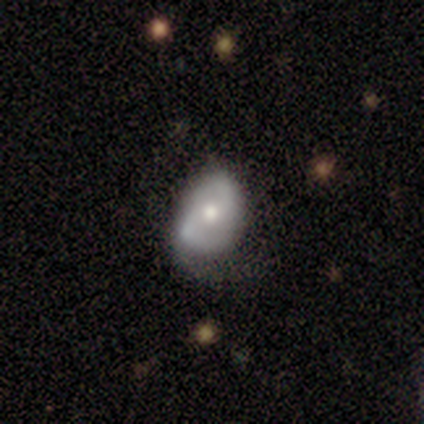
This appears to be a featured or disk galaxy (67%) with no bar (69%), 2 (89%) medium (61%) spiral arms (69%) and a moderate central bulge (65%). Merging: minor disturbance (41%).